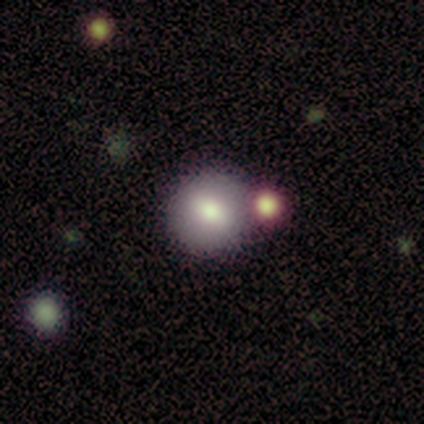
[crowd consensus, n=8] Volunteers were most divided on "smooth or featured" (2-way tie): smooth: 50%, featured or disk: 50%, star or artifact: 0%. More confident: how rounded — round (100%); merging — none (75%).